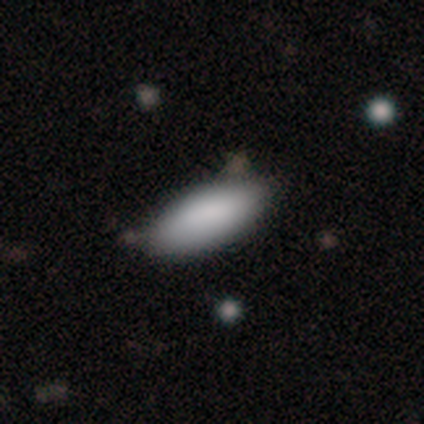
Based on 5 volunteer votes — Morphology: type=smooth (100%); roundness=in between (60%); merging=none (80%).